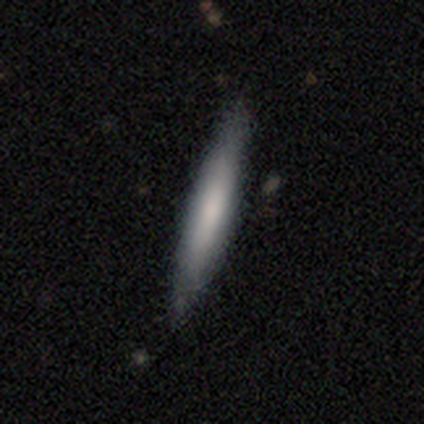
smooth-or-featured: smooth: 100% | featured or disk: 0% | star or artifact: 0%
  how-rounded: cigar-shaped: 100% | round: 0% | in between: 0%
  merging: none: 100% | minor disturbance: 0% | major disturbance: 0% | merger: 0%